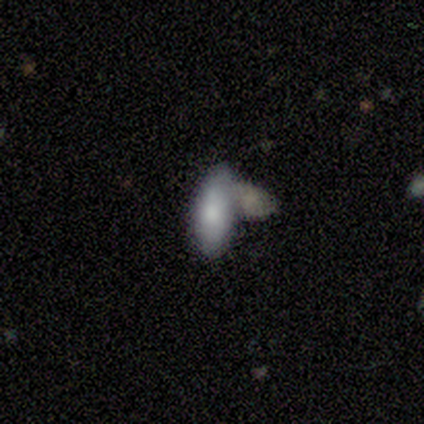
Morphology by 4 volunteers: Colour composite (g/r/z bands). It shows a featured or disk galaxy (75%) with no bar (100%), no spiral arms (67%) and a moderate central bulge (67%). Merging: merger (50%).